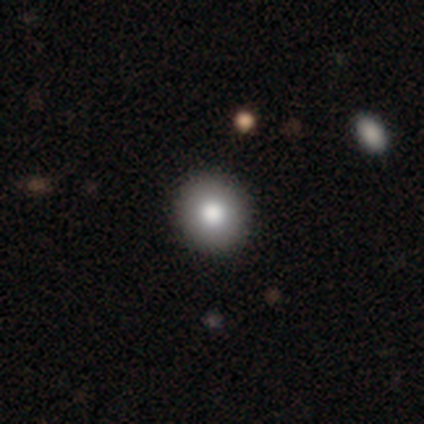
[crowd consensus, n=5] smooth_or_featured: smooth (p=0.80) [alt: featured or disk p=0.20]
how_rounded: round (p=1.00)
merging: none (p=0.80) [alt: minor disturbance p=0.20]